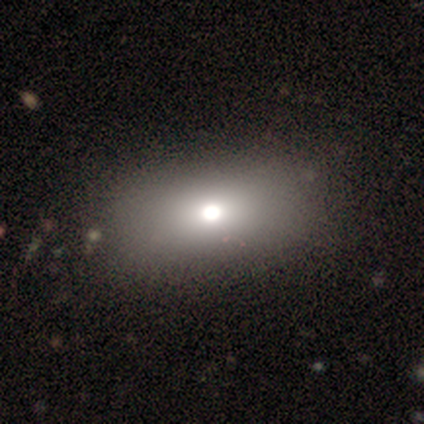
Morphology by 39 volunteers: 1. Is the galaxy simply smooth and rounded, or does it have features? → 62% smooth, 21% featured or disk, 18% star or artifact.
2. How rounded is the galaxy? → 75% in between, 21% round, 4% cigar-shaped.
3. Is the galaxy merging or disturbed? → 59% none, 3% minor disturbance, 3% merger, 0% major disturbance.